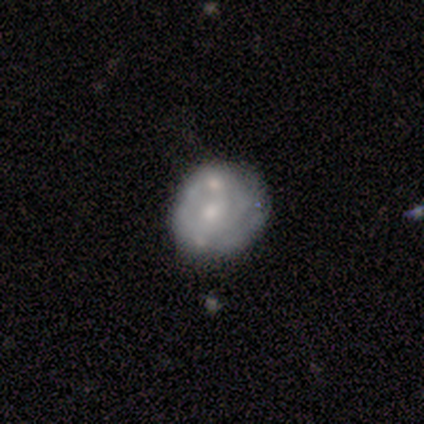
Smooth or featured? 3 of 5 (60%) said featured or disk. Edge-on disk? 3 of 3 (100%) said no. Bar? 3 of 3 (100%) said no. Spiral arms? 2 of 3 (67%) said no. Bulge size? 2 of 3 (67%) said moderate. Merging? 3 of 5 (60%) said merger.